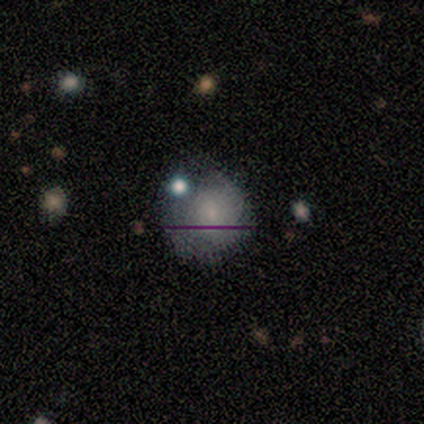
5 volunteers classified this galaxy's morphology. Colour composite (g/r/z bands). It shows a smooth galaxy with no disk features (40%, tied with star or artifact) that is round (100%). Merging: none (33%, tied with minor disturbance and merger).